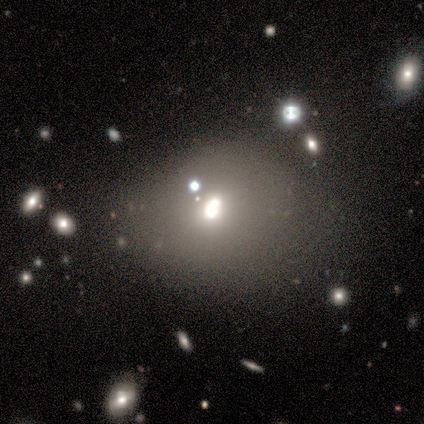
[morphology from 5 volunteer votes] Smooth or featured: featured or disk — 60% (smooth — 20%)
Edge-on disk: no — 100%
Bar: no — 100%
Spiral arms: no — 67% (yes — 33%)
Bulge size: moderate — 67% (large — 33%)
Merging: none — 50% (minor disturbance — 25%)